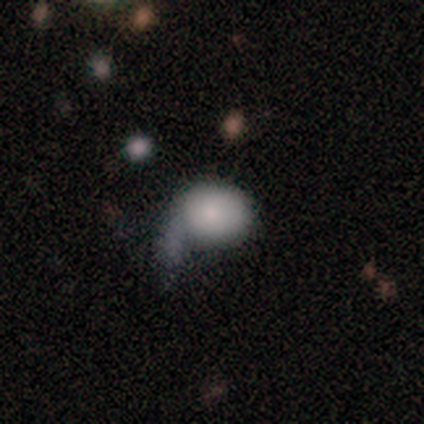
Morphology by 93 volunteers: Overall: smooth (80%). How rounded: round (53%; in between 47%). Merging: major disturbance (32%; none 27%).